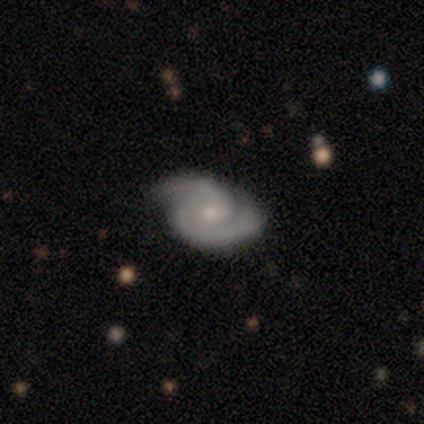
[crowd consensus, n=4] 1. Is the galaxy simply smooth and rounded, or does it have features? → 100% featured or disk, 0% smooth, 0% star or artifact.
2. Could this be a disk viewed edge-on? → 100% no, 0% yes.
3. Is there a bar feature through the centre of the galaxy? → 75% no, 25% weak, 0% strong.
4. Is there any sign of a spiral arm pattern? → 100% yes, 0% no.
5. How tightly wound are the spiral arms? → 50% tight (tied), 50% medium (tied), 0% loose.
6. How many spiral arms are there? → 100% 2, 0% 1, 0% 3, 0% 4, 0% more than 4, 0% can't tell.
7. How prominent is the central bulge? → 50% moderate (tied), 50% small (tied), 0% dominant, 0% large, 0% none.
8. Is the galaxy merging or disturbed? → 100% none, 0% minor disturbance, 0% major disturbance, 0% merger.